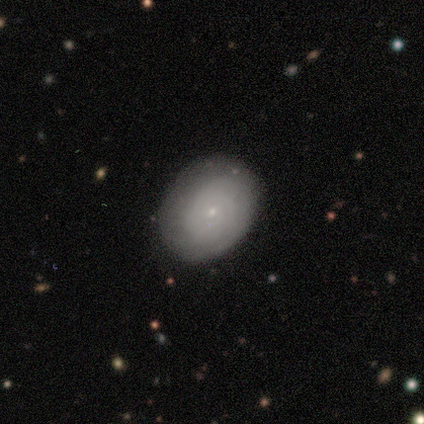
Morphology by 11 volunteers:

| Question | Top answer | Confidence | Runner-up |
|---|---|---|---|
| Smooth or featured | smooth | 64% | featured or disk (36%) |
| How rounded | in between | 86% | round (14%) |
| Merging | none | 55% | minor disturbance (36%) |